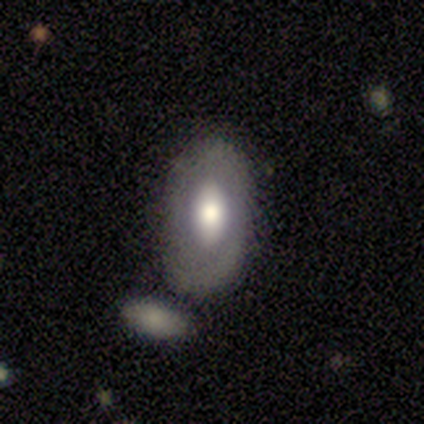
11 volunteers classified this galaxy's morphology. Smooth or featured? 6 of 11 (55%) said featured or disk. Edge-on disk? 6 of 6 (100%) said no. Bar? 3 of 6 (50%) said no. Spiral arms? 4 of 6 (67%) said no. Bulge size? 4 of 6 (67%) said large. Merging? 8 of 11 (73%) said none.